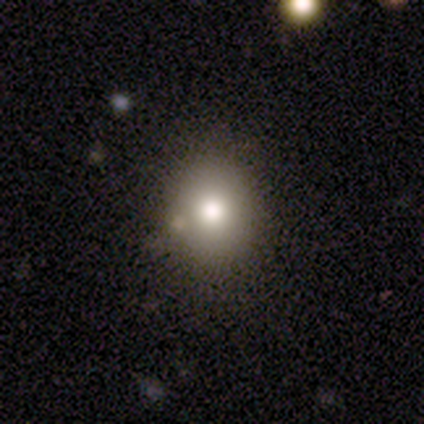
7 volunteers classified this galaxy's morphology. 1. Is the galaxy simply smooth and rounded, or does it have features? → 57% smooth, 29% star or artifact, 14% featured or disk.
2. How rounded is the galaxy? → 100% round, 0% in between, 0% cigar-shaped.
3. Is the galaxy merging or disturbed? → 80% none, 20% minor disturbance, 0% major disturbance, 0% merger.